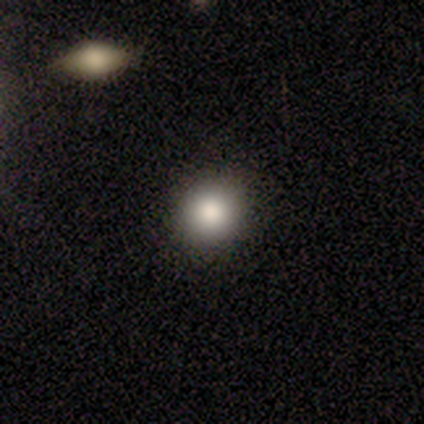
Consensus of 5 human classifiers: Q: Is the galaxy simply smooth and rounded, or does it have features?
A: smooth — 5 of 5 (100%).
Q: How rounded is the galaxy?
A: round — 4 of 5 (80%).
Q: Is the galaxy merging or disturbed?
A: none — 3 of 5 (60%).